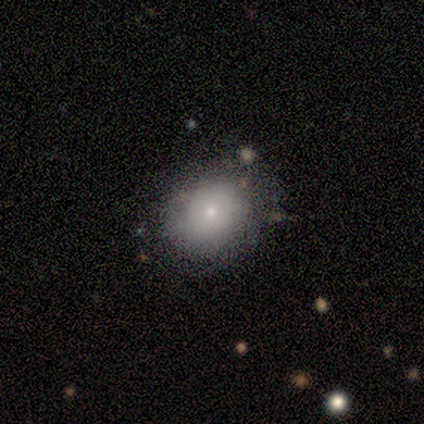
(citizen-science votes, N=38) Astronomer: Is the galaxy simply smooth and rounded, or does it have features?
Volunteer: smooth — 55% (runner-up: featured or disk, 37%).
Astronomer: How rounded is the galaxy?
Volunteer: round — 62% (runner-up: in between, 38%).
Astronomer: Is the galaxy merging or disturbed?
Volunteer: none — 69%.